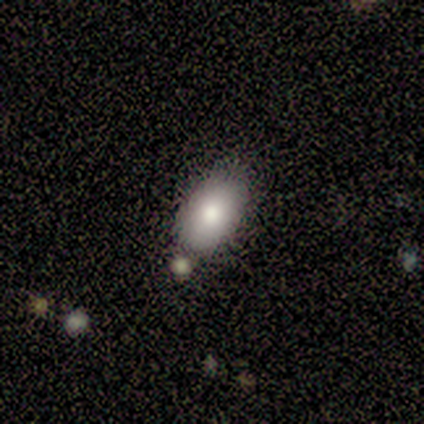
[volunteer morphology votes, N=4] A smooth galaxy with no disk features (100%) that is in between round and cigar-shaped (75%). Merging: none (25%, tied with minor disturbance, major disturbance and merger).